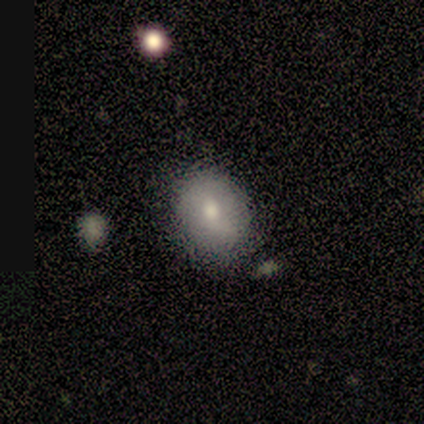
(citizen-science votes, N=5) Smooth or featured? smooth (100%)
How rounded? round (60%)
Merging? none (80%)